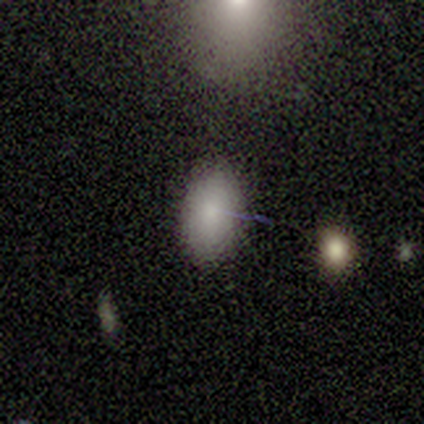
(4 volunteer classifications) Smooth or featured? smooth (100%)
How rounded? in between (100%)
Merging? none (75%)